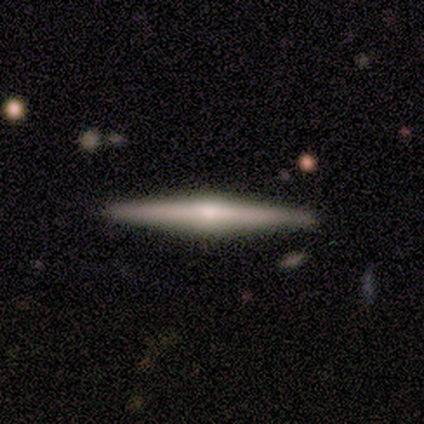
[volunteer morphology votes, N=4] This is clearly a featured or disk galaxy (100%). It is clearly viewed edge-on (100%). Edge-on bulge: clearly rounded (100%). Merging: clearly none (100%).